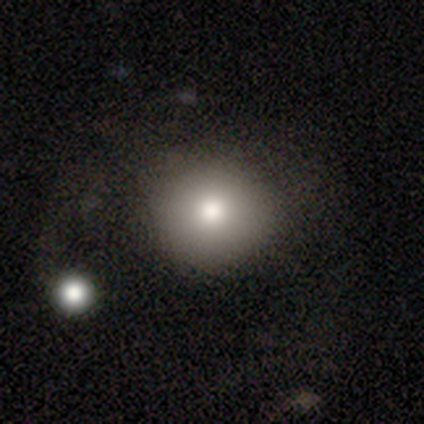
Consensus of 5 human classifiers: A smooth galaxy with no disk features (60%) that is round (67%).

Vote fractions:
- Smooth or featured? smooth: 60% / featured or disk: 20% / star or artifact: 20%
- How rounded? round: 67% / in between: 33% / cigar-shaped: 0%
- Merging? none: 75% / major disturbance: 25% / minor disturbance: 0% / merger: 0%